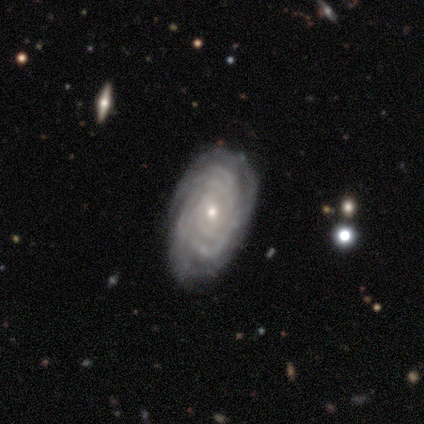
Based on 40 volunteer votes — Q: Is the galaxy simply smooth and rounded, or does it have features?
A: featured or disk — 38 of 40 (95%).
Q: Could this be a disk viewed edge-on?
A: no — 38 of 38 (100%).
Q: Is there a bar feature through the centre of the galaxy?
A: no — 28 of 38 (74%).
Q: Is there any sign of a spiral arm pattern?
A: yes — 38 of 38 (100%).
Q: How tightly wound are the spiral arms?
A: tight — 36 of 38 (95%).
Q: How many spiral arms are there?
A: more than 4 — 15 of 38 (39%, tied with can't tell).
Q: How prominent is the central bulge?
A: small — 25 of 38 (66%).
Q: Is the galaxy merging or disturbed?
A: none — 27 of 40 (68%).